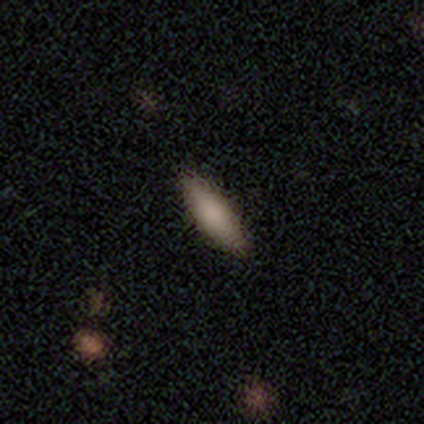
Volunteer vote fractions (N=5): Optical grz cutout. It shows a smooth galaxy with no disk features (60%) that is in between round and cigar-shaped (67%). Merging: none (100%).